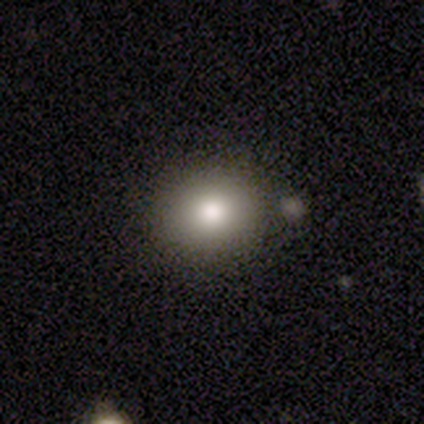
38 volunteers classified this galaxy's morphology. A smooth galaxy with no disk features (92%) that is round (66%). Merging: none (89%).